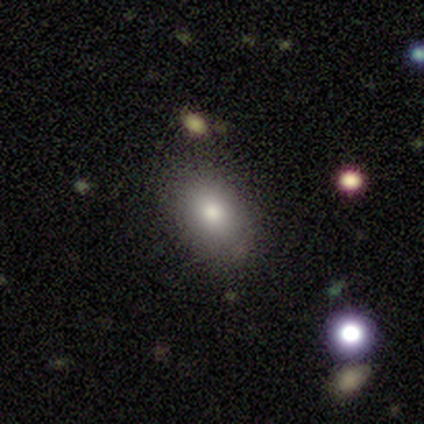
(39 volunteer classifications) Q: Smooth or featured?
A: smooth (69%); runner-up: featured or disk (21%)
Q: How rounded?
A: in between (81%); runner-up: round (19%)
Q: Merging?
A: none (77%); runner-up: minor disturbance (20%)